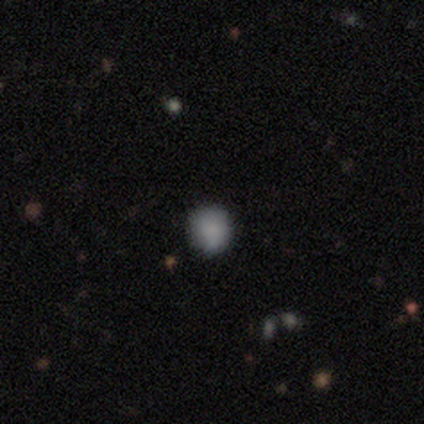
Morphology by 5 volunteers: Overall: smooth (100%). How rounded: round (80%). Merging: none (100%).